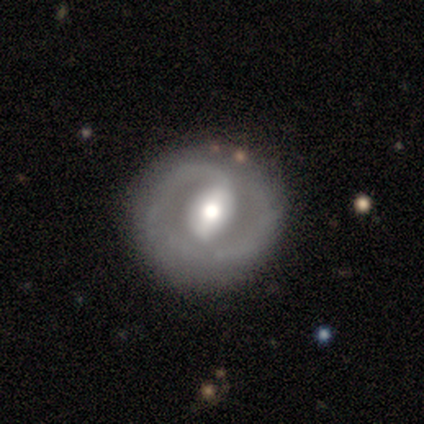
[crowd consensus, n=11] Smooth or featured: featured or disk — 91% (smooth — 9%)
Edge-on disk: no — 100%
Bar: strong — 70% (no — 20%)
Spiral arms: yes — 80% (no — 20%)
Spiral winding: tight — 62% (loose — 25%)
Spiral arm count: 2 — 62% (1 — 25%)
Bulge size: large — 60% (moderate — 40%)
Merging: none — 82% (minor disturbance — 9%)